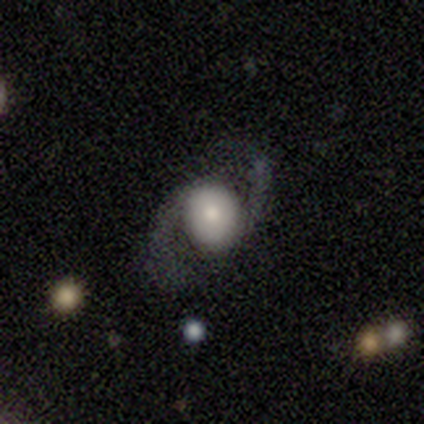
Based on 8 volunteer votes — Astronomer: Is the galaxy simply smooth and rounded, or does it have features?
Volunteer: featured or disk — 88%.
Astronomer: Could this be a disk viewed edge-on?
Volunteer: no — 100%.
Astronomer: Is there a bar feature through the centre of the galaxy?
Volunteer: no — 100%.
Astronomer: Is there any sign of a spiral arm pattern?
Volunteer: yes — 100%.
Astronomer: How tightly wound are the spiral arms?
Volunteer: loose — 71%.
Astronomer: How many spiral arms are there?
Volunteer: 2 — 100%.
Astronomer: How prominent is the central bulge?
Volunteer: dominant — 29%, tied with moderate at 29%.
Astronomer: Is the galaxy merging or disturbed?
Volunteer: none — 100%.